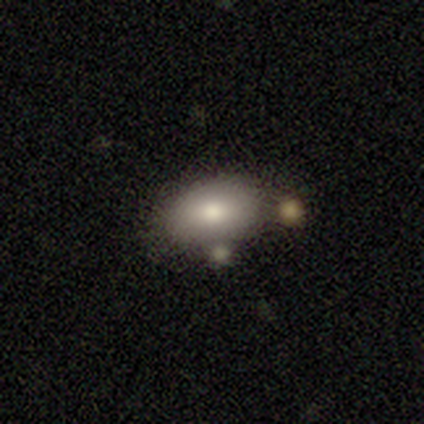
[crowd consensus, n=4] This appears to be a smooth galaxy with no disk features (50%, tied with featured or disk) that is in between round and cigar-shaped (100%). Merging: none (75%).